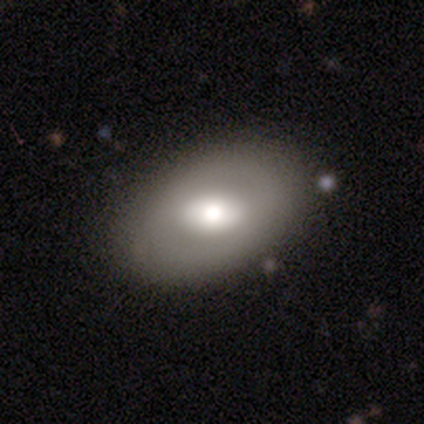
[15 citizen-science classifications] Smooth or featured?
  - featured or disk: 60% *
  - smooth: 40%
  - star or artifact: 0%
Edge-on disk?
  - no: 100% *
  - yes: 0%
Bar?
  - strong: 44% *
  - weak: 33%
  - no: 22%
Spiral arms?
  - no: 100% *
  - yes: 0%
Bulge size?
  - moderate: 56% *
  - large: 44%
  - dominant: 0%
  - small: 0%
  - none: 0%
Merging?
  - none: 80% *
  - minor disturbance: 13%
  - major disturbance: 7%
  - merger: 0%